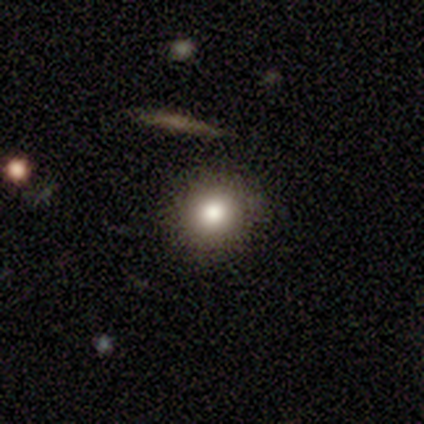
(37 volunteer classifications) Smooth or featured? smooth (73%)
How rounded? round (96%)
Merging? none (94%)